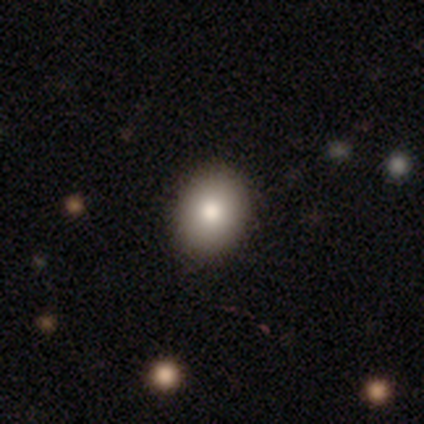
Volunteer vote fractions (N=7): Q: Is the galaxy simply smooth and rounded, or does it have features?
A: smooth — 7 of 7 (100%).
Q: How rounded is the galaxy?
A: in between — 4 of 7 (57%).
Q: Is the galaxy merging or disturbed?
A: none — 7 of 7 (100%).